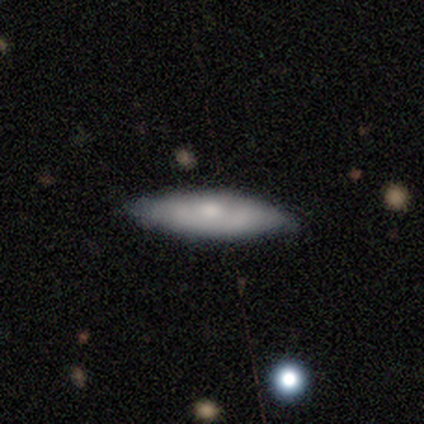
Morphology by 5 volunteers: Q: Smooth or featured?
A: smooth (60%); runner-up: featured or disk (40%)
Q: How rounded?
A: in between (67%); runner-up: cigar-shaped (33%)
Q: Merging?
A: none (80%); runner-up: minor disturbance (20%)